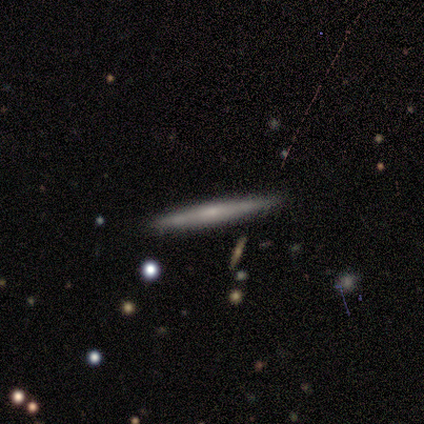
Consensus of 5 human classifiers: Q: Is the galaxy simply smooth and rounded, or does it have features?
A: featured or disk — 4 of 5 (80%).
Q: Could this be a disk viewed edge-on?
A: yes — 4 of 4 (100%).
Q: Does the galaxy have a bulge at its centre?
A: rounded — 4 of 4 (100%).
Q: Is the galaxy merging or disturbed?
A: none — 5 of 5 (100%).